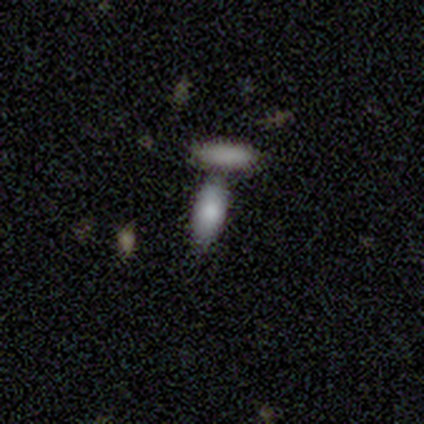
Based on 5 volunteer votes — smooth-or-featured: smooth: 80% | featured or disk: 20% | star or artifact: 0%
  how-rounded: in between: 100% | round: 0% | cigar-shaped: 0%
  merging: merger: 60% | none: 20% | minor disturbance: 20% | major disturbance: 0%